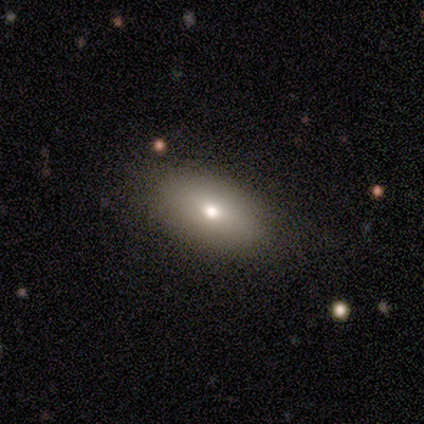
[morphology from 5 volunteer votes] Consensus on every question: smooth or featured — smooth (100%); how rounded — in between (100%); merging — none (100%).